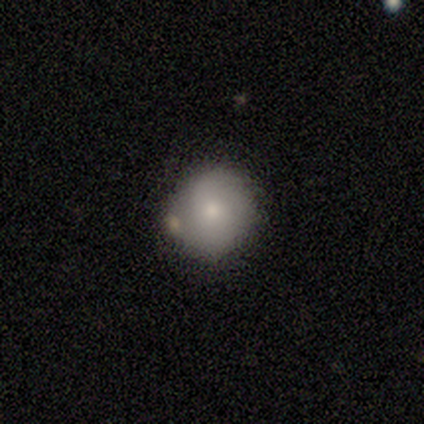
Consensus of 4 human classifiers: Q: Smooth or featured?
A: smooth (75%); runner-up: featured or disk (25%)
Q: How rounded?
A: round (67%); runner-up: in between (33%)
Q: Merging?
A: none (100%)